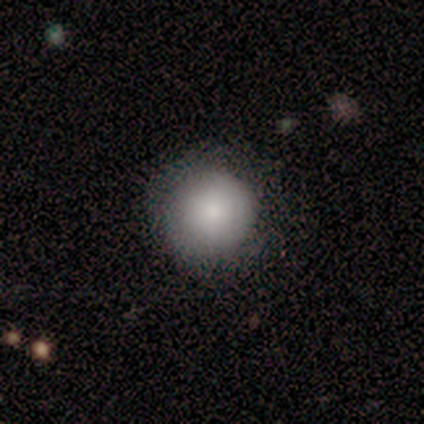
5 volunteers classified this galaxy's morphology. Overall: smooth (100%). How rounded: round (100%). Merging: none (100%).